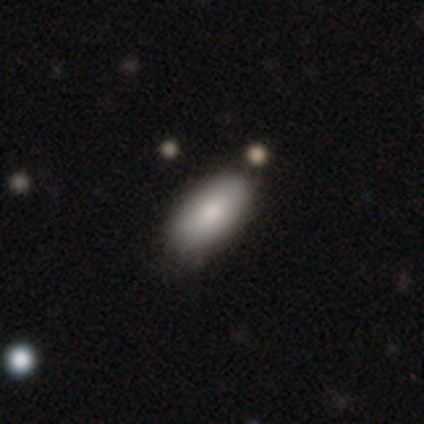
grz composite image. It shows a smooth galaxy with no disk features (100%) that is in between round and cigar-shaped (100%). Merging: none (60%).